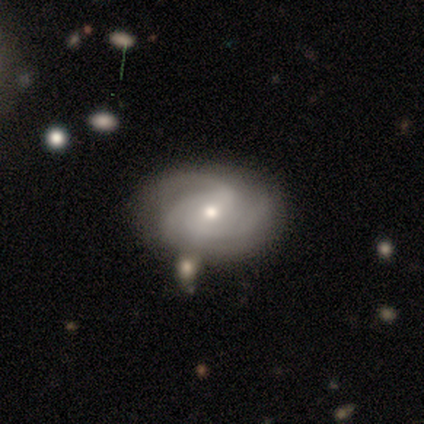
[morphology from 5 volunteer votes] This appears to be a featured or disk galaxy (80%) with no bar (100%), 3 (50%) tight (75%) spiral arms (100%) and a moderate central bulge (50%, tied with small). Merging: none (80%).